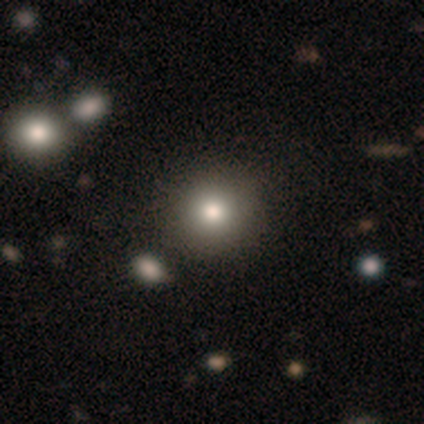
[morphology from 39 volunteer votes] Smooth or featured? 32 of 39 (82%) said smooth. How rounded? 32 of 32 (100%) said round. Merging? 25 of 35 (71%) said none.